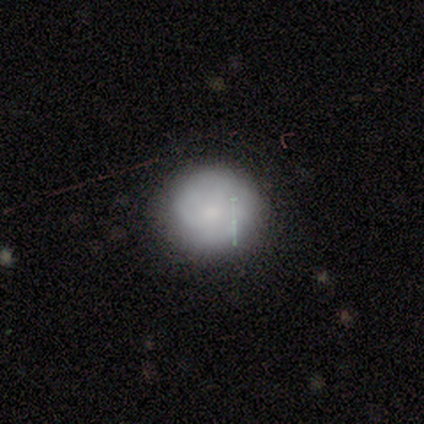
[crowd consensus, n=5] This is clearly a smooth galaxy (100%). How rounded: clearly round (80%). Merging: likely none (60%).